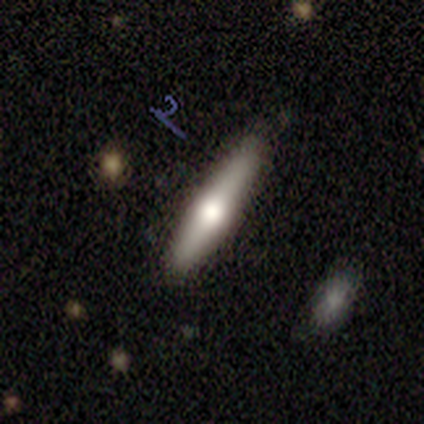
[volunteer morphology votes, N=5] Smooth or featured? smooth (60%)
How rounded? cigar-shaped (100%)
Merging? none (100%)